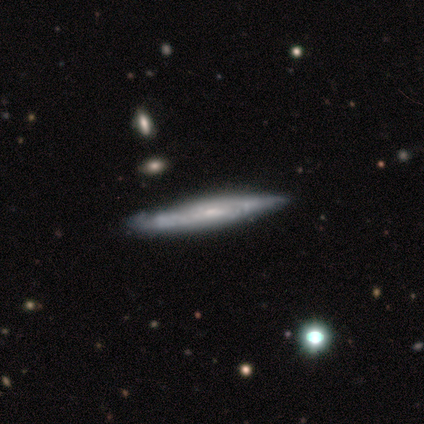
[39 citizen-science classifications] smooth-or-featured: featured or disk: 67% | smooth: 31% | star or artifact: 3%
  disk-edge-on: yes: 69% | no: 31%
    edge-on-bulge: none: 72% | rounded: 22% | boxy: 6%
  merging: none: 76% | minor disturbance: 24% | major disturbance: 0% | merger: 0%